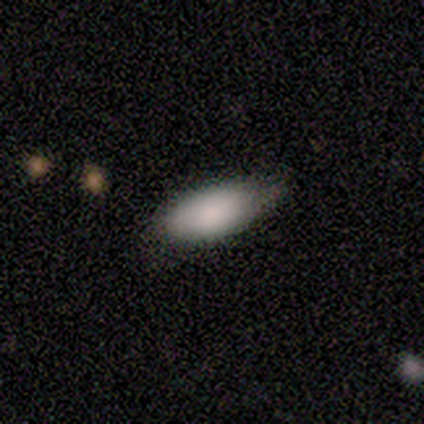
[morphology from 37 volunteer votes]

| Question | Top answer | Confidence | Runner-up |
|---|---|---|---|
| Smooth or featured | smooth | 89% | featured or disk (11%) |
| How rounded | in between | 91% | cigar-shaped (9%) |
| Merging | none | 62% | minor disturbance (35%) |